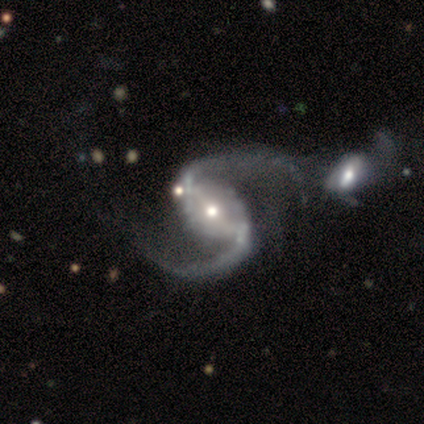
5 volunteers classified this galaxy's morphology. Smooth or featured: featured or disk — 80% (star or artifact — 20%)
Edge-on disk: no — 100%
Bar: strong — 75% (weak — 25%)
Spiral arms: yes — 100%
Spiral winding: medium — 50% (tied with loose — 50%)
Spiral arm count: 2 — 75% (4 — 25%)
Bulge size: moderate — 50% (tied with small — 50%)
Merging: none — 75% (major disturbance — 25%)